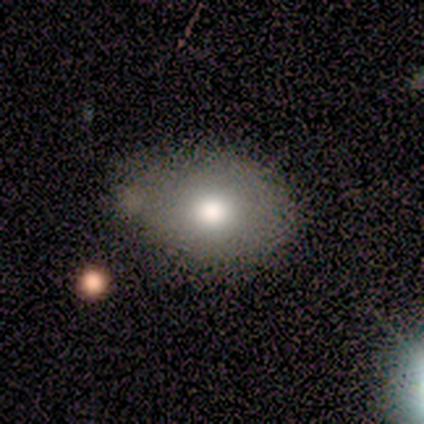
Smooth or featured?
  - smooth: 62% *
  - star or artifact: 25%
  - featured or disk: 12%
How rounded?
  - in between: 60% *
  - round: 40%
  - cigar-shaped: 0%
Merging?
  - none: 50% * (tied)
  - minor disturbance: 50% * (tied)
  - major disturbance: 0%
  - merger: 0%